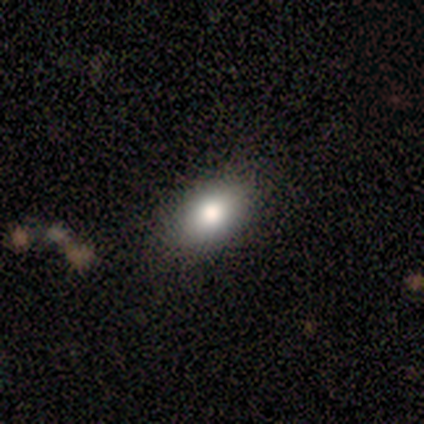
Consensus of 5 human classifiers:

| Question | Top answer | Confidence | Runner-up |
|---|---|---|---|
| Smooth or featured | smooth | 60% | featured or disk (20%) |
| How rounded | in between | 100% | — |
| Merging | none | 100% | — |